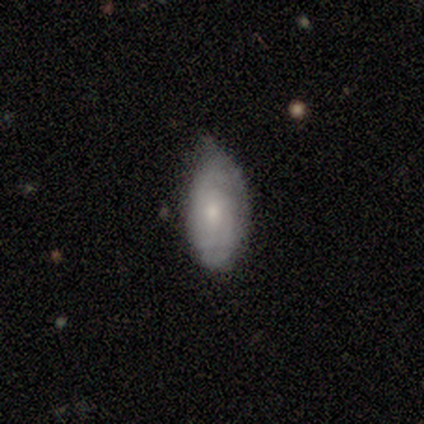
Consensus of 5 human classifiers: smooth 60%, featured or disk 40%, star or artifact 0%. Down the decision tree: how rounded — in between (100%); merging — minor disturbance (60%).